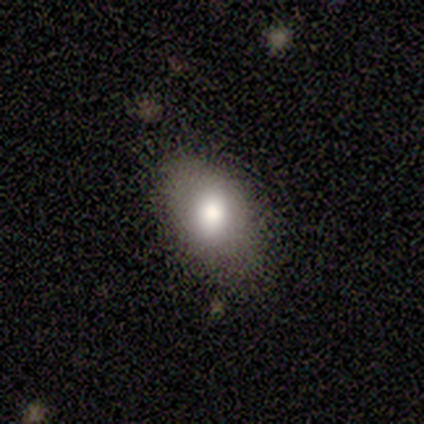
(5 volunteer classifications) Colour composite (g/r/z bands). It shows a smooth galaxy with no disk features (100%) that is in between round and cigar-shaped (100%). Merging: none (100%).